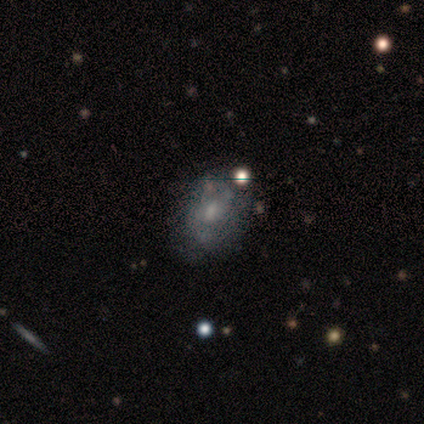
This is possibly a featured or disk galaxy (50%). It is clearly not viewed edge-on (100%). Bar: likely no (67%). Spiral arm pattern: likely no (67%). Central bulge: marginally moderate (33%, tied with small and none). Merging: likely none (60%).